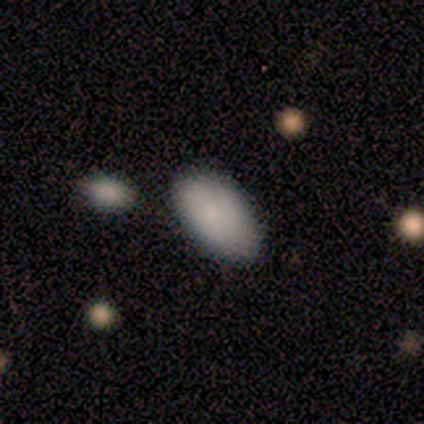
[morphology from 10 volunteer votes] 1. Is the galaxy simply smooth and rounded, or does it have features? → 100% smooth, 0% featured or disk, 0% star or artifact.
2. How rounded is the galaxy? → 100% in between, 0% round, 0% cigar-shaped.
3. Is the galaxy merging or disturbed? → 90% none, 10% minor disturbance, 0% major disturbance, 0% merger.